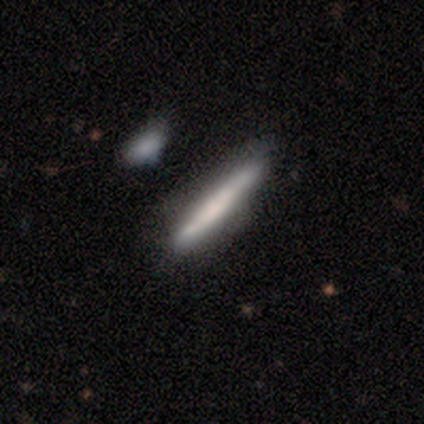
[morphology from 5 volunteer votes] smooth-or-featured: featured or disk: 60% | smooth: 40% | star or artifact: 0%
  disk-edge-on: yes: 100% | no: 0%
    edge-on-bulge: none: 100% | boxy: 0% | rounded: 0%
  merging: none: 100% | minor disturbance: 0% | major disturbance: 0% | merger: 0%